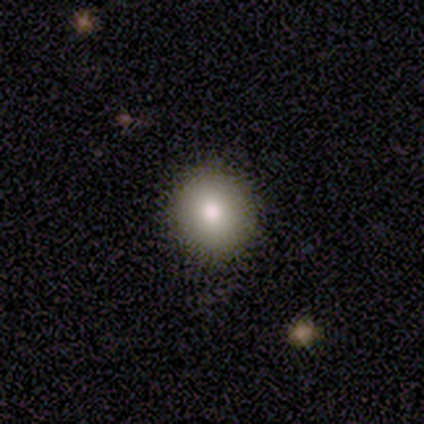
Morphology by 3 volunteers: Smooth or featured? smooth (100%)
How rounded? round (100%)
Merging? none (100%)